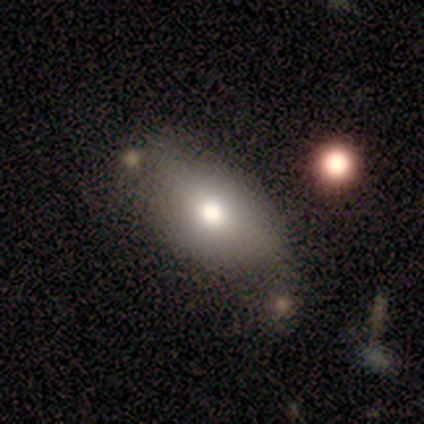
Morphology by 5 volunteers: type=smooth (100%); roundness=in between (80%); merging=none (60%).